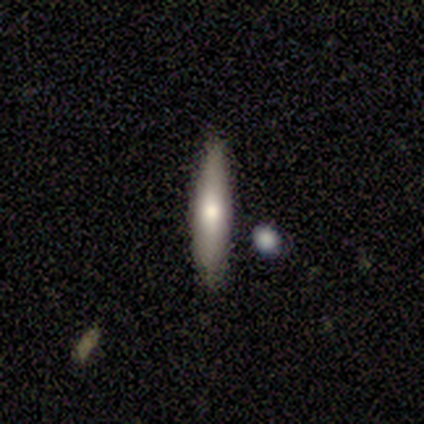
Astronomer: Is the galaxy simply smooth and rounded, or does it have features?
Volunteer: smooth — 100%.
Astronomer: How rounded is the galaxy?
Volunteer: cigar-shaped — 100%.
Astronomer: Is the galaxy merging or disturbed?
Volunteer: none — 75%.